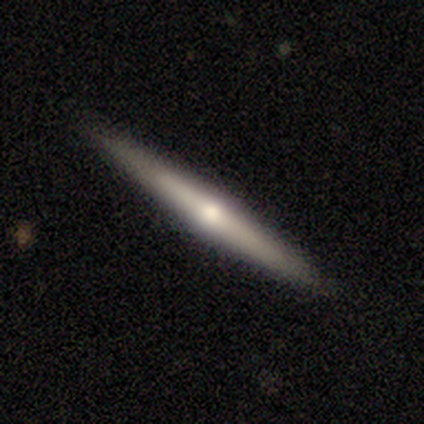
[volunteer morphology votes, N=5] This appears to be a featured or disk galaxy (80%) viewed edge-on (100%) with a rounded central bulge (100%). Merging: none (60%).